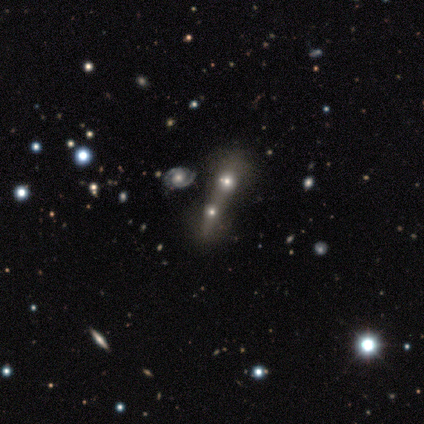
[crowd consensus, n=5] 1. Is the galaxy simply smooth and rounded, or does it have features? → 40% smooth (tied), 40% featured or disk (tied), 20% star or artifact.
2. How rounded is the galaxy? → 100% in between, 0% round, 0% cigar-shaped.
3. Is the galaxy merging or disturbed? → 50% none (tied), 50% merger (tied), 0% minor disturbance, 0% major disturbance.